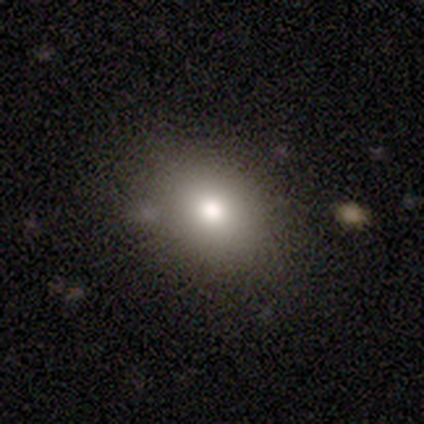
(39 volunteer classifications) Smooth or featured?
  - smooth: 67% *
  - star or artifact: 21%
  - featured or disk: 13%
How rounded?
  - round: 54% *
  - in between: 42%
  - cigar-shaped: 4%
Merging?
  - none: 77% *
  - minor disturbance: 10%
  - major disturbance: 10%
  - merger: 3%